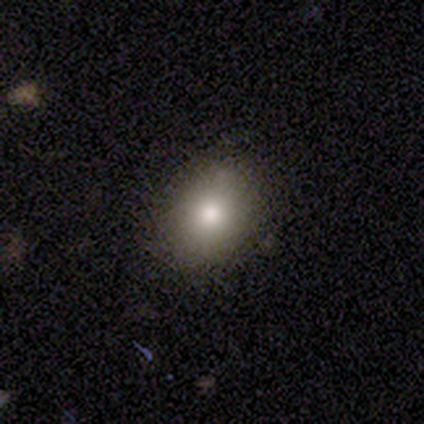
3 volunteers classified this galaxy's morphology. Smooth or featured? smooth (100%)
How rounded? in between (67%)
Merging? none (100%)